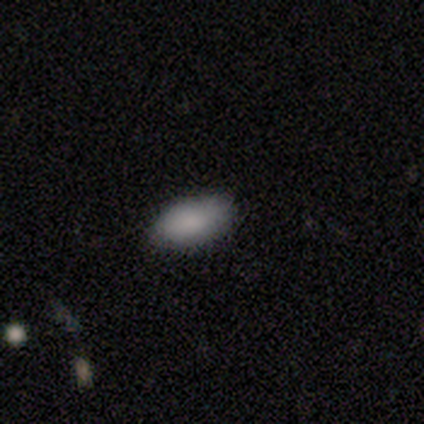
Smooth or featured? smooth (100%)
How rounded? in between (100%)
Merging? none (80%)